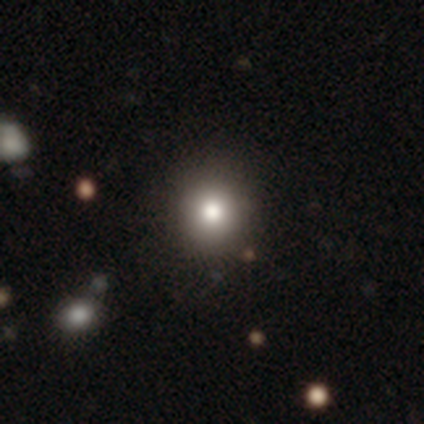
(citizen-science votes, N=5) A smooth galaxy with no disk features (100%) that is round (100%). Merging: none (100%).